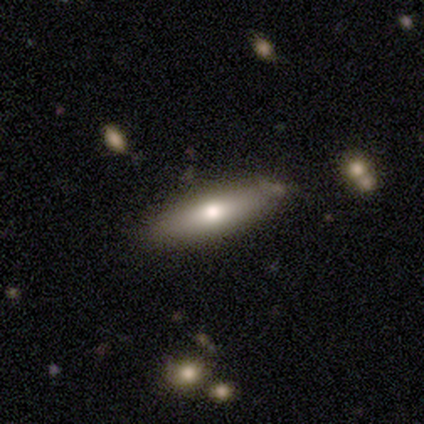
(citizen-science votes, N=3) Morphology: type=featured or disk (67%); edge-on=yes (100%); edge-on bulge=rounded (100%); merging=none (67%).